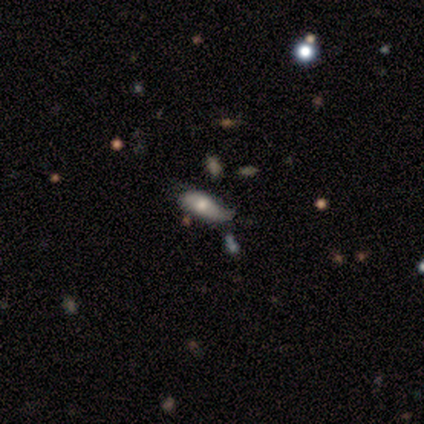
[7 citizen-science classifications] Smooth or featured?
  - smooth: 57% *
  - featured or disk: 29%
  - star or artifact: 14%
How rounded?
  - in between: 50% *
  - round: 25%
  - cigar-shaped: 25%
Merging?
  - minor disturbance: 83% *
  - major disturbance: 17%
  - none: 0%
  - merger: 0%